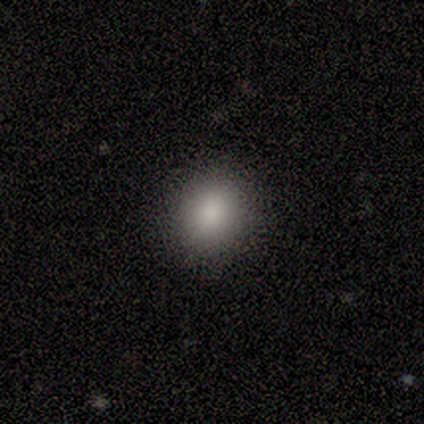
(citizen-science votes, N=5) Smooth or featured? smooth (100%)
How rounded? in between (60%)
Merging? none (80%)